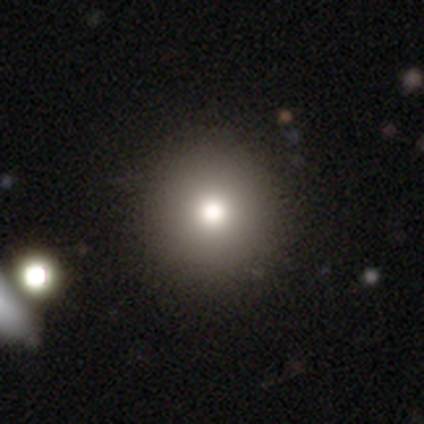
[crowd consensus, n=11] smooth-or-featured: smooth: 55% | star or artifact: 27% | featured or disk: 18%
  how-rounded: round: 100% | in between: 0% | cigar-shaped: 0%
  merging: none: 100% | minor disturbance: 0% | major disturbance: 0% | merger: 0%